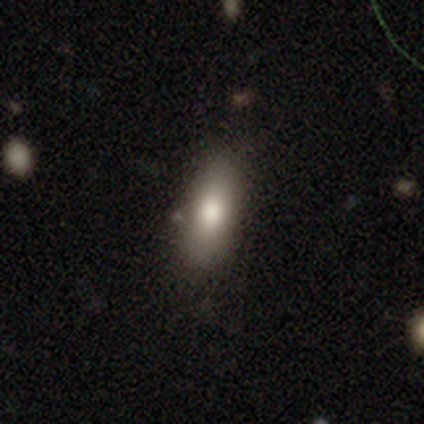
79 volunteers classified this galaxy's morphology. Smooth or featured? smooth (82%)
How rounded? in between (71%)
Merging? none (48%)